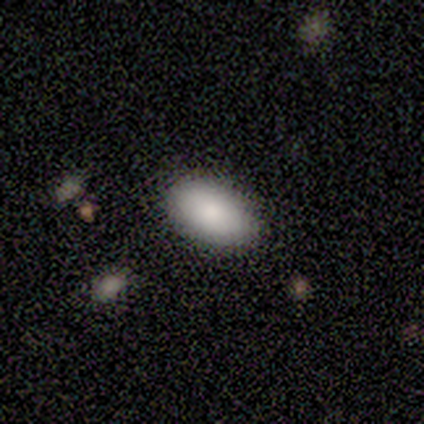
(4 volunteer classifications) This is clearly a smooth galaxy (100%). How rounded: clearly in between (100%). Merging: clearly none (100%).